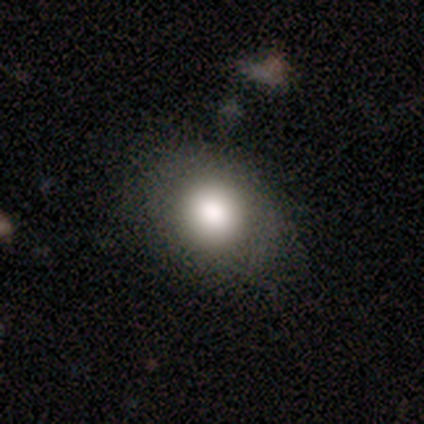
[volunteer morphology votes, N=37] Smooth or featured? smooth (68%)
How rounded? round (64%)
Merging? none (81%)